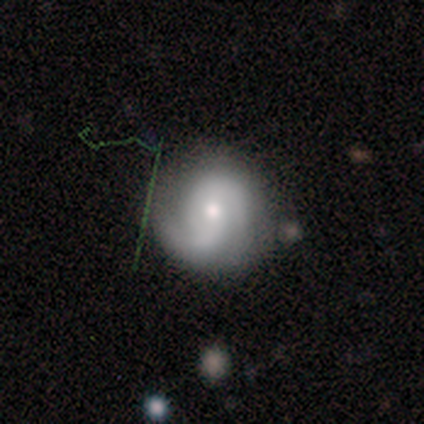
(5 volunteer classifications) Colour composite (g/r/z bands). It shows a featured or disk galaxy (100%) with no bar (60%), 2 (100%) tight (60%) spiral arms (100%) and a moderate central bulge (60%). Merging: none (60%).